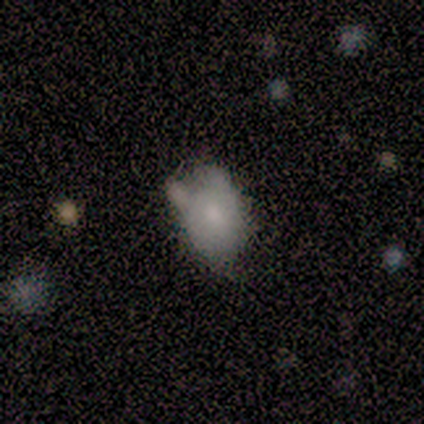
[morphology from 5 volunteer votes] smooth 100%, featured or disk 0%, star or artifact 0%. Down the decision tree: how rounded — in between (80%); merging — none (40%, tied with minor disturbance).